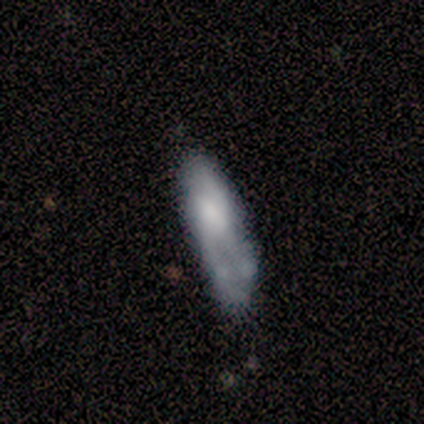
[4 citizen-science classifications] Overall: smooth (50%, tied with featured or disk). How rounded: in between (50%, tied with cigar-shaped). Merging: none (50%, tied with minor disturbance).